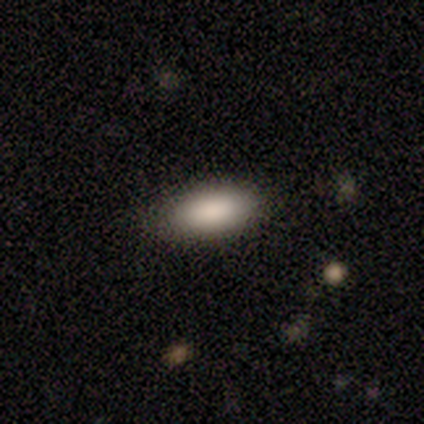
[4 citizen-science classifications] Smooth or featured?
  - smooth: 100% *
  - featured or disk: 0%
  - star or artifact: 0%
How rounded?
  - in between: 100% *
  - round: 0%
  - cigar-shaped: 0%
Merging?
  - none: 100% *
  - minor disturbance: 0%
  - major disturbance: 0%
  - merger: 0%